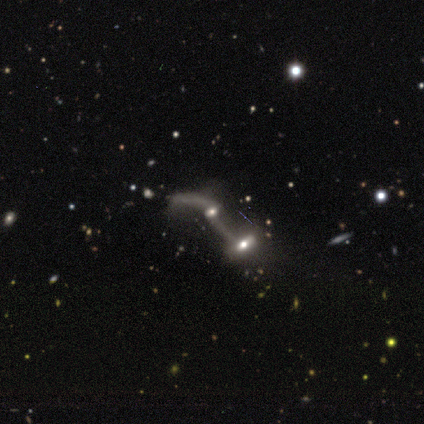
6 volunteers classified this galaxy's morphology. A featured or disk galaxy (67%) with a weak bar (67%), no spiral arms (67%) and a dominant central bulge (33%, tied with large and small). Merging: merger (83%).